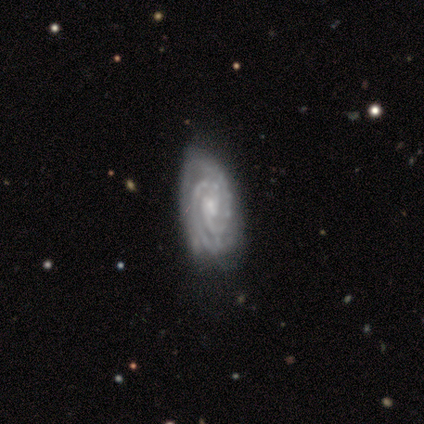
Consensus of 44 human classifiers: smooth_or_featured: featured or disk (p=0.93) [alt: star or artifact p=0.05]
disk_edge_on: no (p=0.98) [alt: yes p=0.02]
bar: no (p=0.57) [alt: weak p=0.38]
has_spiral_arms: yes (p=0.97) [alt: no p=0.03]
spiral_winding: tight (p=0.87) [alt: medium p=0.10]
spiral_arm_count: 2 (p=0.72) [alt: 3 p=0.21]
bulge_size: small (p=0.57) [alt: moderate p=0.33]
merging: none (p=0.69) [alt: minor disturbance p=0.26]